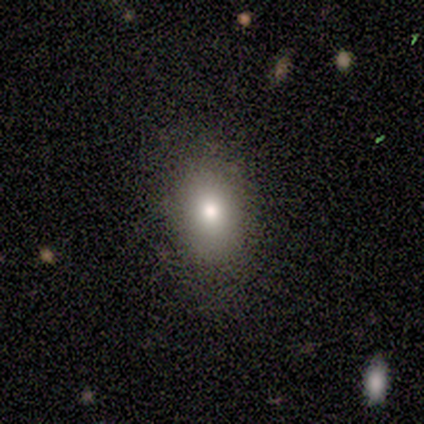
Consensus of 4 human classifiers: Volunteers were most divided on "bar" (2-way tie): weak: 50%, no: 50%, strong: 0%. More confident: spiral arms — no (100%); bulge size — moderate (100%); smooth or featured — featured or disk (75%); merging — none (75%); edge-on disk — no (67%).